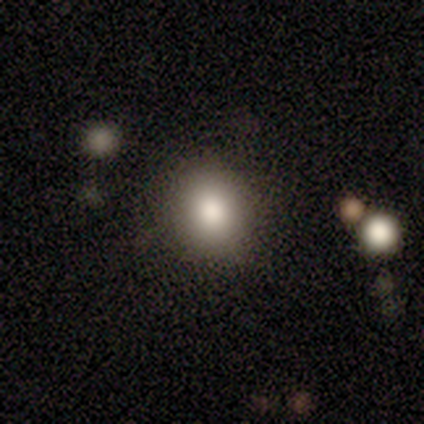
A smooth galaxy with no disk features (85%) that is round (82%). Merging: none (92%).